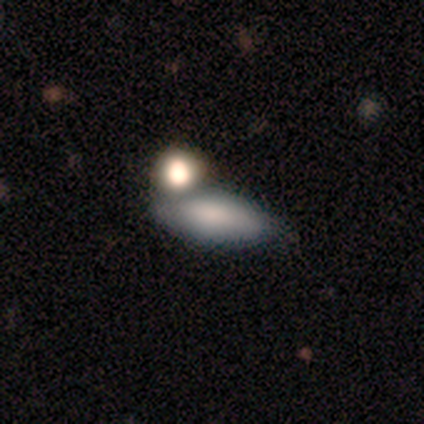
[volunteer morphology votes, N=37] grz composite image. It shows a smooth galaxy with no disk features (76%) that is in between round and cigar-shaped (68%). Merging: none (56%).